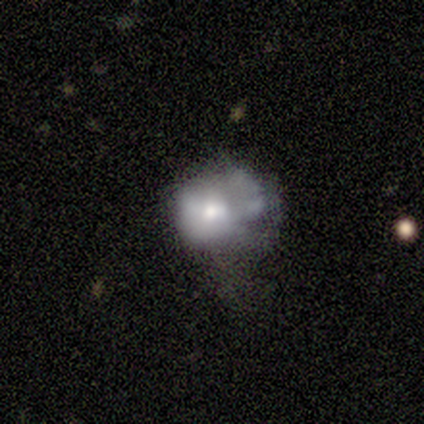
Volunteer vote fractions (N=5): This appears to be a featured or disk galaxy (80%) with no bar (100%), no spiral arms (100%) and a moderate central bulge (100%). Merging: none (60%).